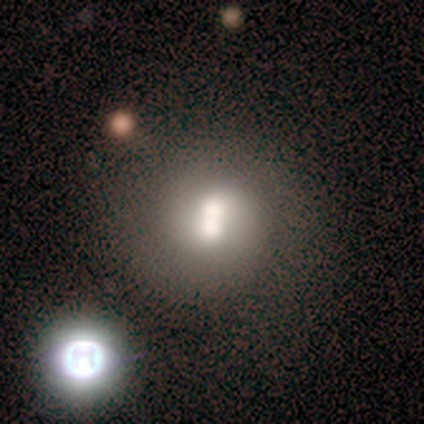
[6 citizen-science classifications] Smooth or featured: featured or disk — 50% (smooth — 33%)
Edge-on disk: no — 100%
Bar: no — 67% (weak — 33%)
Spiral arms: yes — 67% (no — 33%)
Spiral winding: loose — 100%
Spiral arm count: 2 — 100%
Bulge size: large — 33% (tied with moderate — 33%; small — 33%)
Merging: merger — 100%